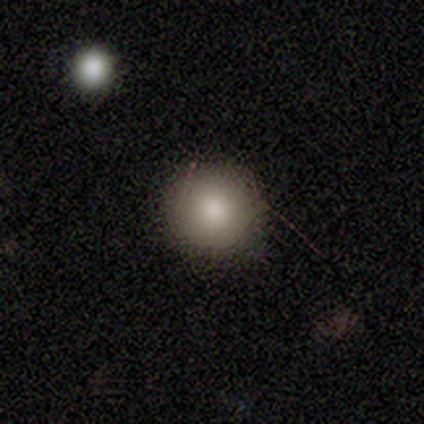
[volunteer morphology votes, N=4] Smooth or featured? smooth (100%)
How rounded? round (100%)
Merging? none (100%)